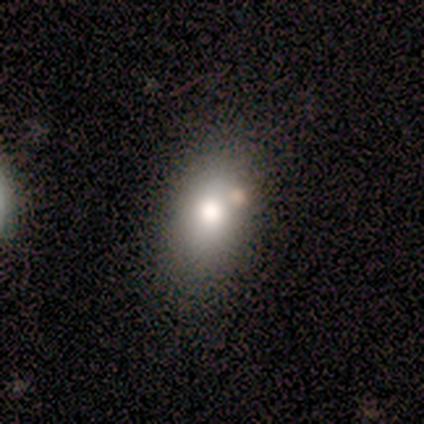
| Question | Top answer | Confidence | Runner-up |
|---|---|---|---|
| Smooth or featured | smooth | 80% | featured or disk (10%) |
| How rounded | in between | 50% | round (25%) |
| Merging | none | 78% | minor disturbance (11%) |